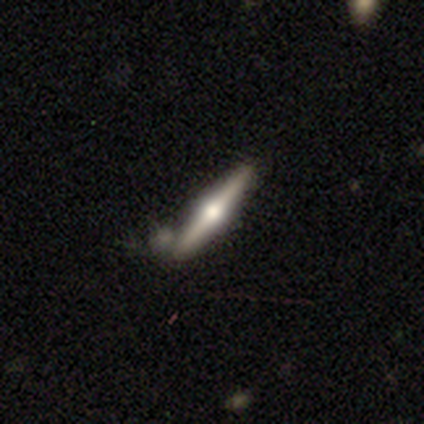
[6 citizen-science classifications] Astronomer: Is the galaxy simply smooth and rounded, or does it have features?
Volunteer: featured or disk — 67%.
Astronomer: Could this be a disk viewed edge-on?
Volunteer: yes — 100%.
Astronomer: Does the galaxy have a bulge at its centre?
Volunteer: rounded — 100%.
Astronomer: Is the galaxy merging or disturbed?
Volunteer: none — 50% (runner-up: merger, 33%).